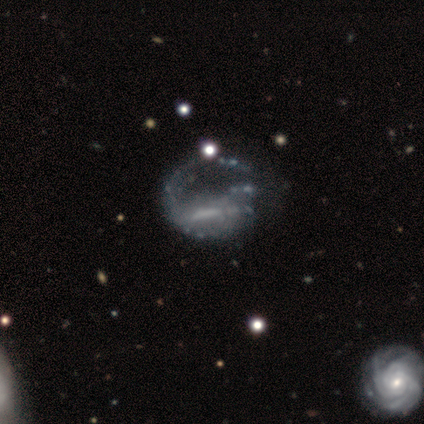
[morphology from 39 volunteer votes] Smooth or featured: featured or disk — 87% (star or artifact — 8%)
Edge-on disk: no — 97% (yes — 3%)
Bar: no — 36% (weak — 33%)
Spiral arms: yes — 52% (no — 48%)
Spiral winding: loose — 41% (medium — 35%)
Spiral arm count: 1 — 59% (can't tell — 18%)
Bulge size: none — 45% (small — 30%)
Merging: major disturbance — 28% (none — 19%)